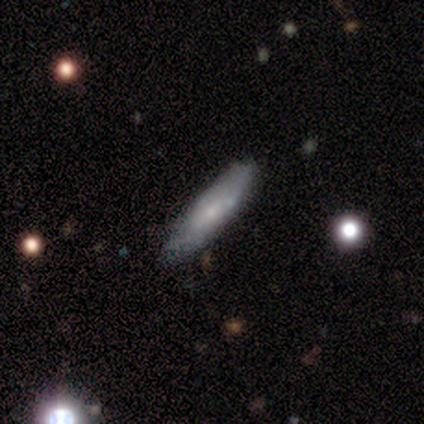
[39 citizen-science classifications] Smooth or featured? smooth (46%, tied with featured or disk)
How rounded? cigar-shaped (78%)
Merging? none (75%)